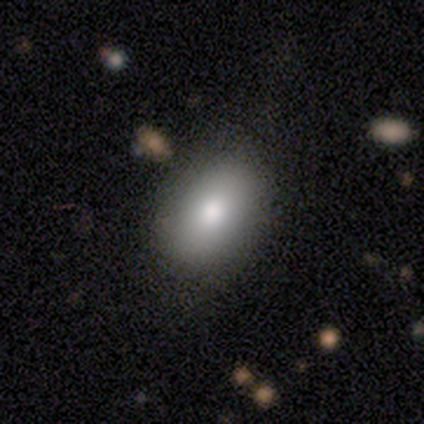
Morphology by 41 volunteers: Smooth or featured?
  - smooth: 85% *
  - featured or disk: 7%
  - star or artifact: 7%
How rounded?
  - in between: 74% *
  - round: 26%
  - cigar-shaped: 0%
Merging?
  - none: 87% *
  - minor disturbance: 8%
  - major disturbance: 5%
  - merger: 0%